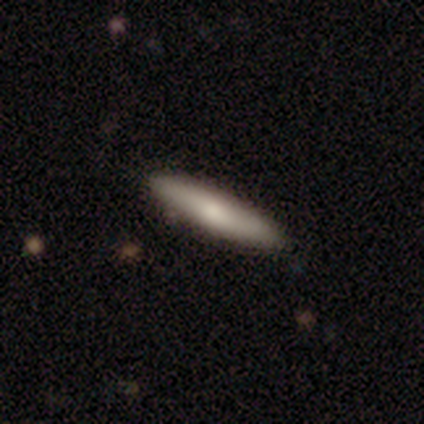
This appears to be a smooth galaxy with no disk features (74%) that is cigar-shaped (86%). Merging: none (89%).